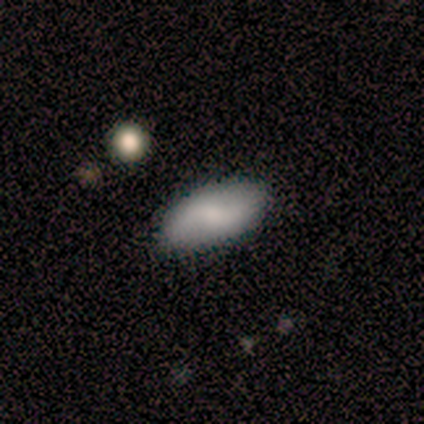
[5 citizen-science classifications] smooth 60%, featured or disk 40%, star or artifact 0%. Down the decision tree: how rounded — in between (100%); merging — none (100%).